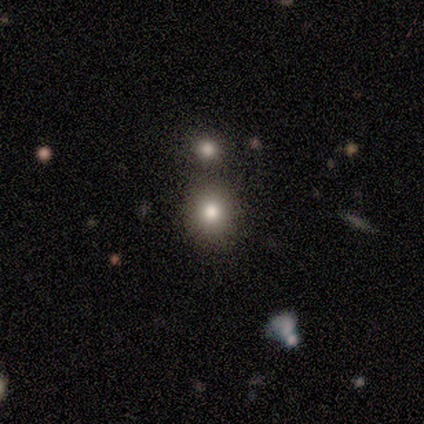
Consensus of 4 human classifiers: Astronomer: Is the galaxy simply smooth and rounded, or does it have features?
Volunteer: smooth — 75%.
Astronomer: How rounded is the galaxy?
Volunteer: round — 100%.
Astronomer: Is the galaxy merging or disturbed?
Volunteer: none — 67%.